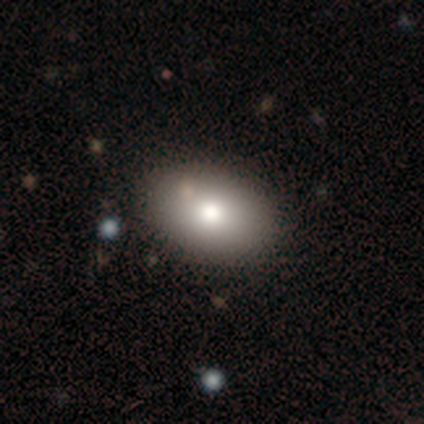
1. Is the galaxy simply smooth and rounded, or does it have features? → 80% smooth, 20% featured or disk, 0% star or artifact.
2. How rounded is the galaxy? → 75% in between, 25% round, 0% cigar-shaped.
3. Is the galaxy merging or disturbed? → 80% none, 20% merger, 0% minor disturbance, 0% major disturbance.